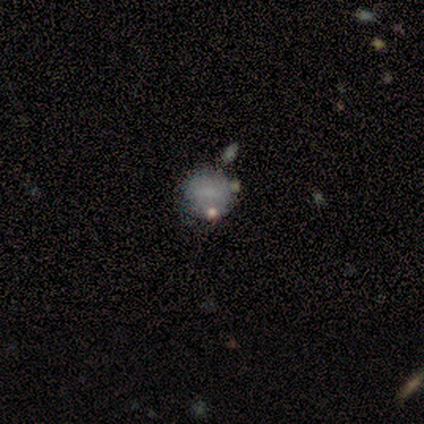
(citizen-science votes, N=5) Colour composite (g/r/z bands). It shows a smooth galaxy with no disk features (80%) that is round (75%). Merging: minor disturbance (50%).